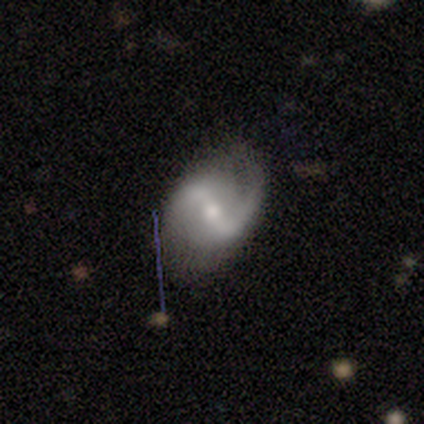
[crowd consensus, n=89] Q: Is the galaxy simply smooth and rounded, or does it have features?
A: featured or disk — 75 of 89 (84%).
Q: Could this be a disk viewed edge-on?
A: no — 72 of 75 (96%).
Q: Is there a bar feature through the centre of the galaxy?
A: weak — 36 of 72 (50%).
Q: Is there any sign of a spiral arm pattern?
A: yes — 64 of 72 (89%).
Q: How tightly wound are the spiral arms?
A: loose — 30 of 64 (47%).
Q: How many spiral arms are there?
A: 2 — 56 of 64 (88%).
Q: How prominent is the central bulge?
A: moderate — 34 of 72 (47%, tied with small).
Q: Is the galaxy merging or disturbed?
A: none — 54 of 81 (67%).